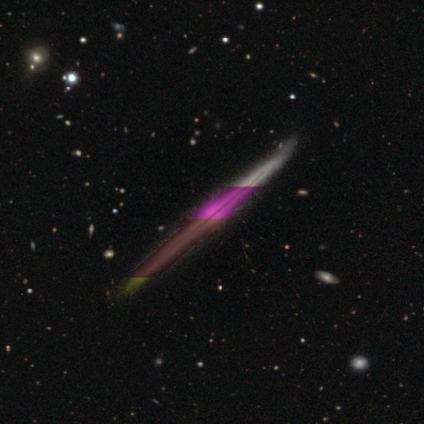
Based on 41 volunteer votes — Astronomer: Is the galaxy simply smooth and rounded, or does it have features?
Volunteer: featured or disk — 71%.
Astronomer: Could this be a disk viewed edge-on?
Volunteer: yes — 100%.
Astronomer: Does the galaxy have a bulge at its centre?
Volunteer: none — 52% (runner-up: rounded, 45%).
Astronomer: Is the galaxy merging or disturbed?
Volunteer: none — 77%.